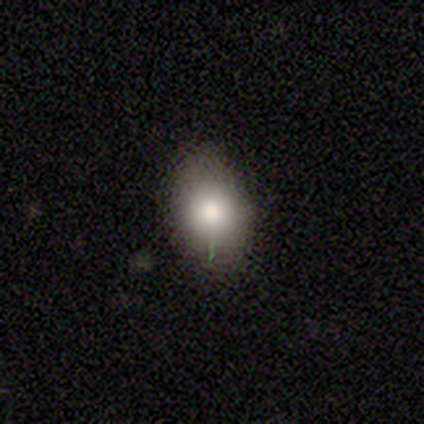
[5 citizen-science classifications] This appears to be a smooth galaxy with no disk features (60%) that is in between round and cigar-shaped (67%). Merging: none (75%).